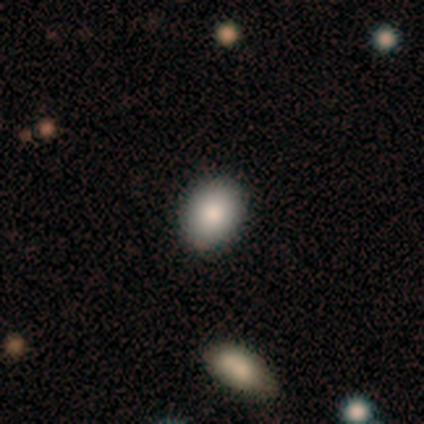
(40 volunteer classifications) Overall: smooth (80%). How rounded: in between (75%). Merging: none (94%).